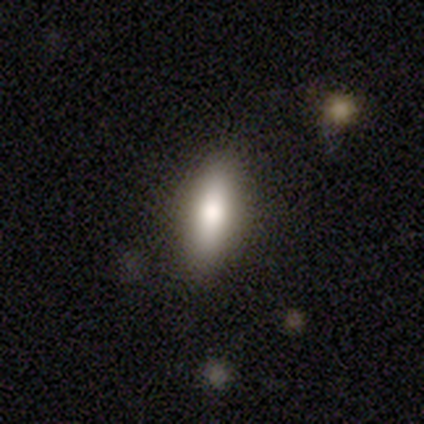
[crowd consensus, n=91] A smooth galaxy with no disk features (70%) that is in between round and cigar-shaped (56%). Merging: none (85%).